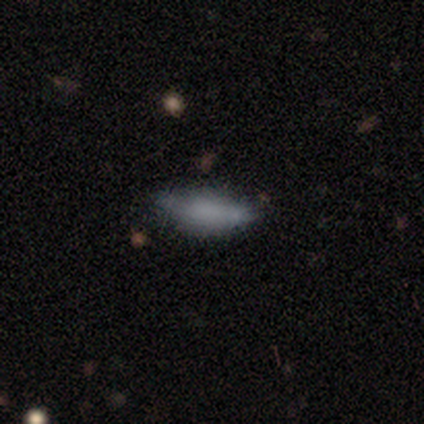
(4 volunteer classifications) Morphology: type=smooth (100%); roundness=cigar-shaped (75%); merging=none (50%, tied with minor disturbance).